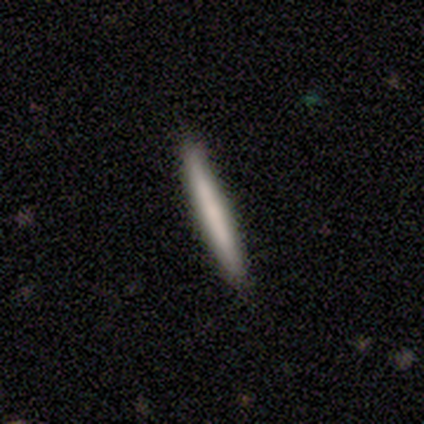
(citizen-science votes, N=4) Smooth or featured?
  - smooth: 75% *
  - featured or disk: 25%
  - star or artifact: 0%
How rounded?
  - cigar-shaped: 100% *
  - round: 0%
  - in between: 0%
Merging?
  - none: 100% *
  - minor disturbance: 0%
  - major disturbance: 0%
  - merger: 0%